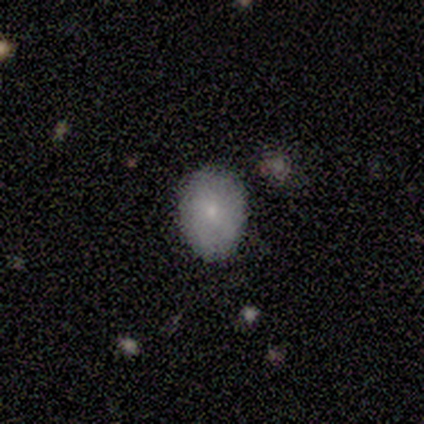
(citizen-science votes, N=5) Smooth or featured? 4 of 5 (80%) said smooth. How rounded? 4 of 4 (100%) said in between. Merging? 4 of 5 (80%) said none.